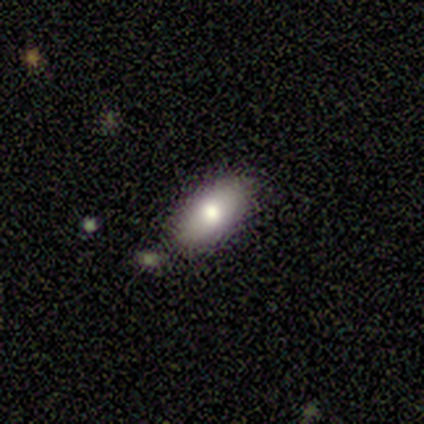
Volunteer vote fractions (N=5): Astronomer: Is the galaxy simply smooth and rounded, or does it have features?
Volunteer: smooth — 60% (runner-up: featured or disk, 40%).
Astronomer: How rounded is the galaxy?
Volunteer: in between — 100%.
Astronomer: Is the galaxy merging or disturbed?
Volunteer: none — 60% (runner-up: minor disturbance, 40%).